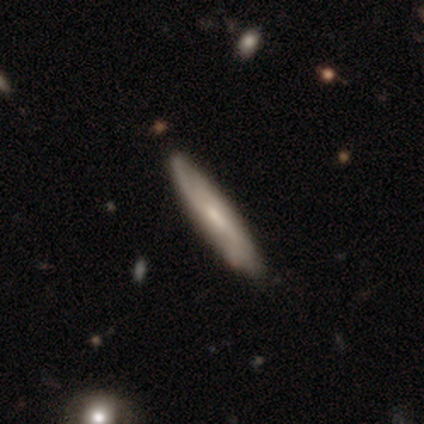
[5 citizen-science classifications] Morphology: type=smooth (60%); roundness=in between (67%); merging=none (60%).